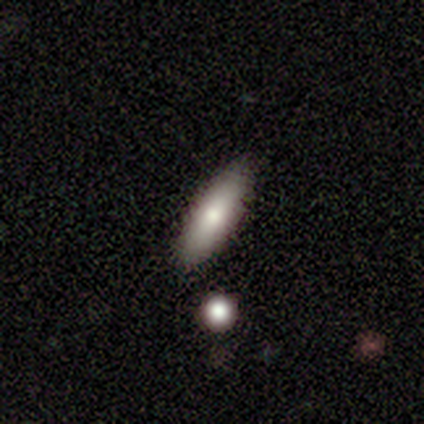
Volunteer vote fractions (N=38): Smooth or featured? smooth (84%)
How rounded? cigar-shaped (59%)
Merging? none (76%)